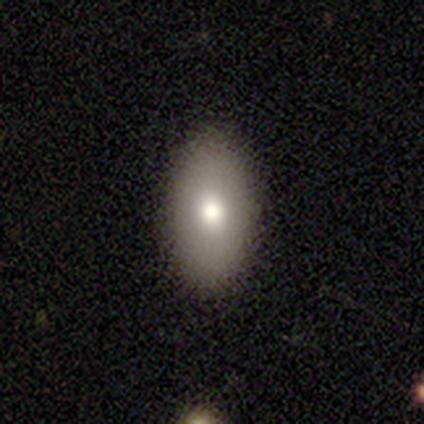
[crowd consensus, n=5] smooth_or_featured: smooth (p=0.40) [tied with: featured or disk p=0.40]
how_rounded: in between (p=1.00)
merging: none (p=1.00)